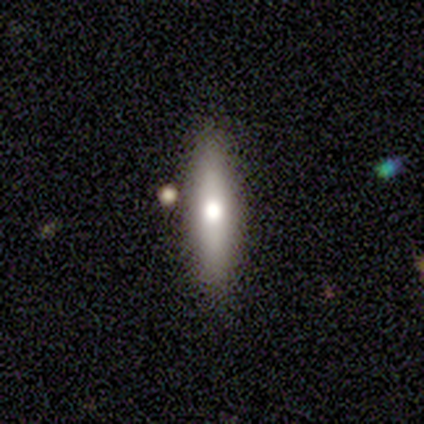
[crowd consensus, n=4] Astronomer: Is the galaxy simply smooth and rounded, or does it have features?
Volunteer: smooth — 50%, tied with featured or disk at 50%.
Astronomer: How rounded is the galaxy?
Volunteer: cigar-shaped — 100%.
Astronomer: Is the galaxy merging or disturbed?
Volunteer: none — 100%.